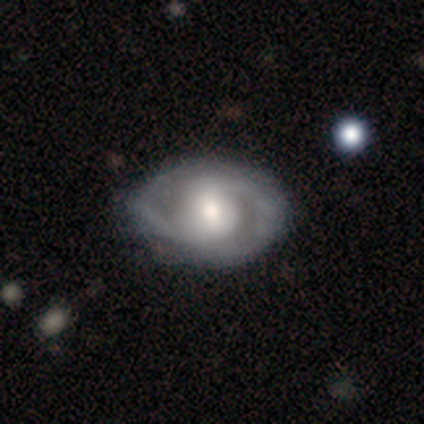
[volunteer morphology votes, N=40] This is clearly a featured or disk galaxy (88%). It is clearly not viewed edge-on (97%). Bar: marginally weak (41%). Spiral arm pattern: clearly yes (94%). Spiral arm count: clearly 2 (91%). Spiral winding: possibly medium (56%). Central bulge: possibly moderate (56%). Merging: likely none (68%).